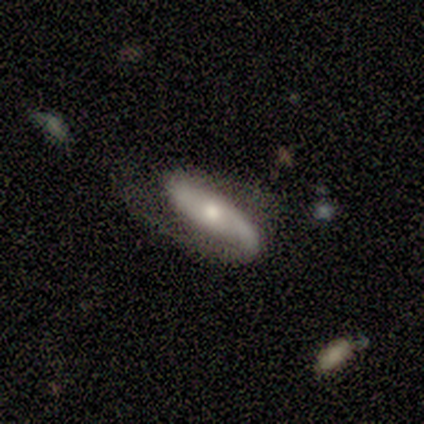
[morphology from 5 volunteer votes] This appears to be a featured or disk galaxy (100%) with no bar (60%), 2 (100%) medium (40%, tied with loose) spiral arms (100%) and a moderate central bulge (60%). Merging: none (80%).